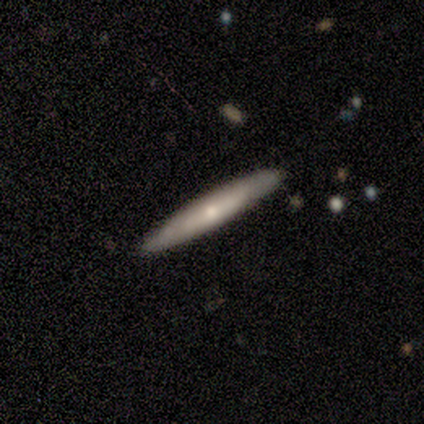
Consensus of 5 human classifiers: Volunteers were most divided on "smooth or featured": featured or disk: 60%, smooth: 40%, star or artifact: 0%. More confident: edge-on disk — yes (100%); merging — none (100%); edge-on bulge — none (67%).